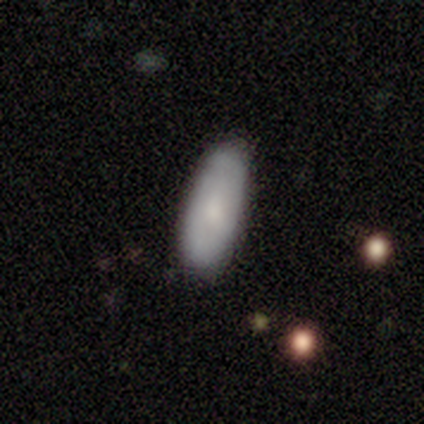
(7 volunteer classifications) smooth_or_featured: smooth (p=0.71) [alt: featured or disk p=0.14]
how_rounded: in between (p=1.00)
merging: none (p=0.67) [alt: minor disturbance p=0.33]